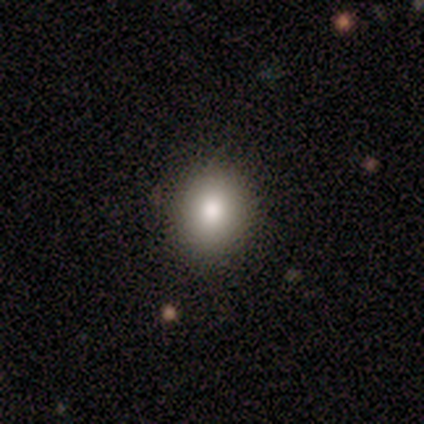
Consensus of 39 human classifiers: Q: Smooth or featured?
A: smooth (85%); runner-up: featured or disk (8%)
Q: How rounded?
A: round (61%); runner-up: in between (39%)
Q: Merging?
A: none (86%); runner-up: minor disturbance (8%)